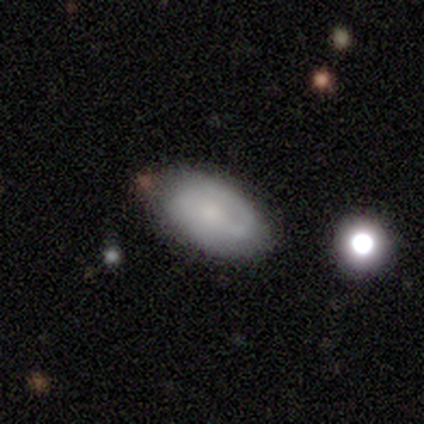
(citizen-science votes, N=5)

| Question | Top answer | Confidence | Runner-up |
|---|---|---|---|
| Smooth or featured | smooth | 60% | featured or disk (40%) |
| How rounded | in between | 100% | — |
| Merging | none | 100% | — |